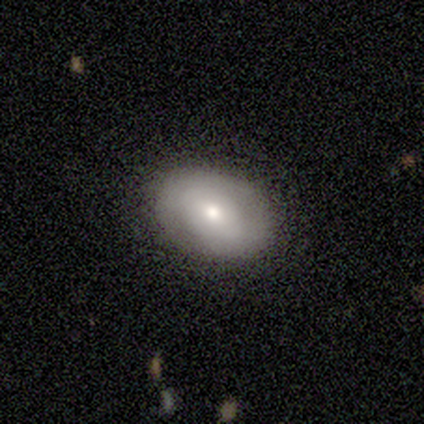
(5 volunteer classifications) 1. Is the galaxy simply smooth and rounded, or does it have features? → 100% smooth, 0% featured or disk, 0% star or artifact.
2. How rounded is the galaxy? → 100% in between, 0% round, 0% cigar-shaped.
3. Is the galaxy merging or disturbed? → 100% none, 0% minor disturbance, 0% major disturbance, 0% merger.